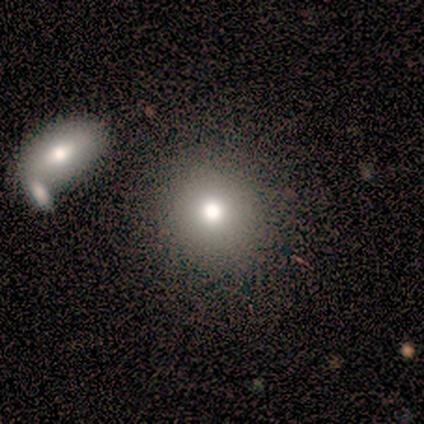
A smooth galaxy with no disk features (50%, tied with featured or disk) that is round (100%).

Vote fractions:
- Smooth or featured? smooth: 50% (tied) / featured or disk: 50% (tied) / star or artifact: 0%
- How rounded? round: 100% / in between: 0% / cigar-shaped: 0%
- Merging? none: 50% / merger: 25% / minor disturbance: 12% / major disturbance: 12%